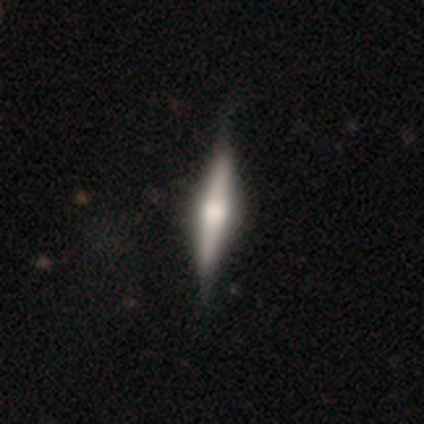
A featured or disk galaxy (67%) viewed edge-on (100%) with a rounded central bulge (92%).

Vote fractions:
- Smooth or featured? featured or disk: 67% / smooth: 31% / star or artifact: 3%
- Edge-on disk? yes: 100% / no: 0%
- Edge-on bulge? rounded: 92% / boxy: 8% / none: 0%
- Merging? none: 50% / minor disturbance: 16% / major disturbance: 5% / merger: 0%